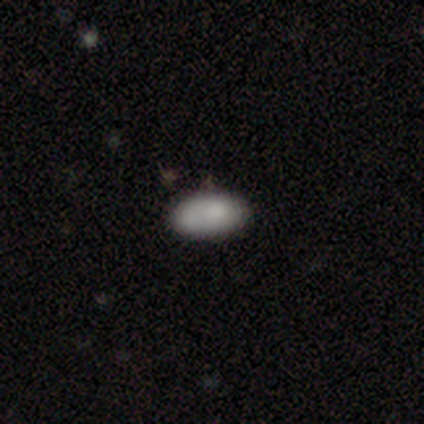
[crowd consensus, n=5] This is likely a smooth galaxy (60%). How rounded: clearly in between (100%). Merging: marginally none (40%, tied with minor disturbance).